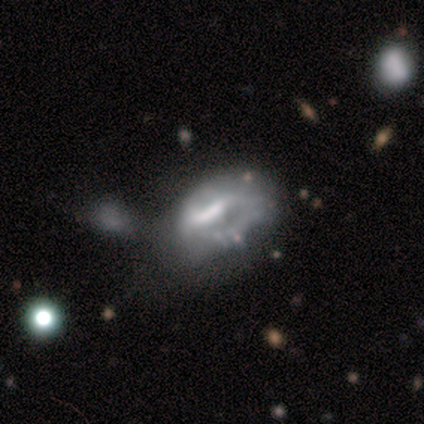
A featured or disk galaxy (50%, tied with star or artifact) with a weak bar (50%, tied with no), medium (100%) spiral arms (50%, tied with no) and a small central bulge (50%, tied with none). Merging: major disturbance (100%).